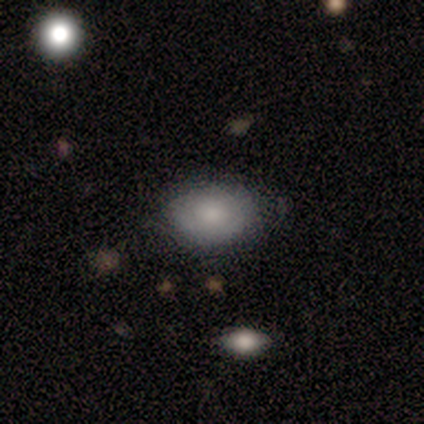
This appears to be a smooth galaxy with no disk features (75%) that is in between round and cigar-shaped (100%). Merging: none (75%).